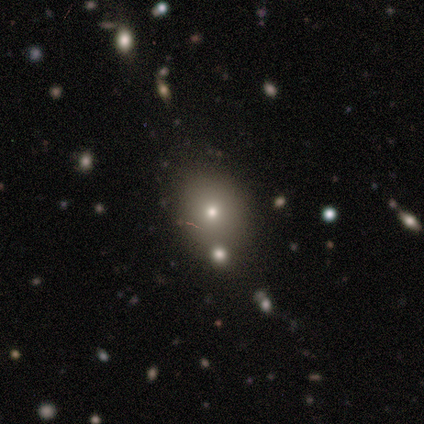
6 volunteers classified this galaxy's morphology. This appears to be a star or artifact, not a galaxy (50%).